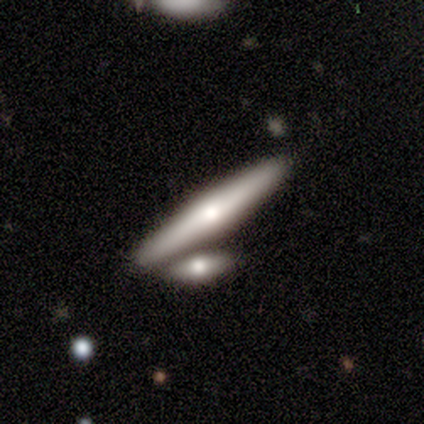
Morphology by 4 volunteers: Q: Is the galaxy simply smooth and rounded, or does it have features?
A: smooth — 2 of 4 (50%, tied with featured or disk).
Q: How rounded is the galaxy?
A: cigar-shaped — 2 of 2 (100%).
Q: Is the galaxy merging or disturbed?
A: none — 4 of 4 (100%).